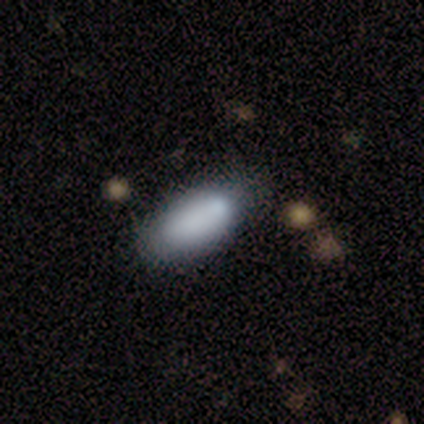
This appears to be a smooth galaxy with no disk features (100%) that is in between round and cigar-shaped (100%). Merging: none (67%).